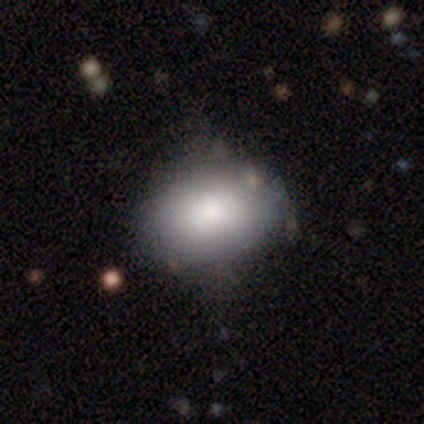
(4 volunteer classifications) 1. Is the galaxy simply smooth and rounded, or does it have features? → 75% smooth, 25% star or artifact, 0% featured or disk.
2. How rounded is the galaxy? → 33% round (tied), 33% in between (tied), 33% cigar-shaped (tied).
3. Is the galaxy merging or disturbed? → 100% none, 0% minor disturbance, 0% major disturbance, 0% merger.